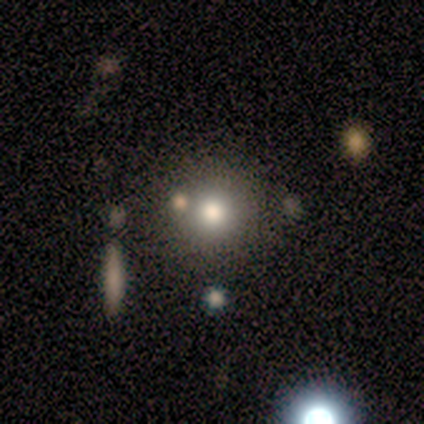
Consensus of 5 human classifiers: Q: Smooth or featured?
A: smooth (80%); runner-up: star or artifact (20%)
Q: How rounded?
A: round (100%)
Q: Merging?
A: none (75%); runner-up: merger (25%)